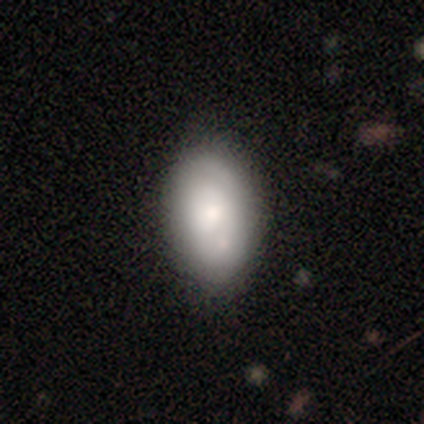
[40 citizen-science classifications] This is possibly a smooth galaxy (52%). How rounded: clearly in between (95%). Merging: possibly none (54%).